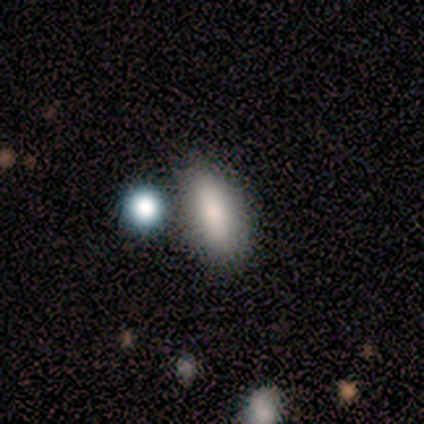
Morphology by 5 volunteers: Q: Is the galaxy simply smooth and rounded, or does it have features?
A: smooth — 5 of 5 (100%).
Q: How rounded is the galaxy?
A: in between — 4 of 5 (80%).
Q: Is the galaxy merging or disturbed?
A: none — 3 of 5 (60%).